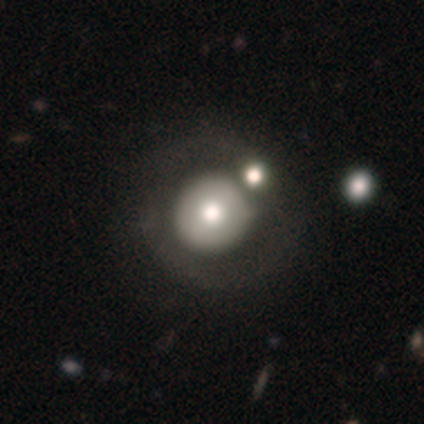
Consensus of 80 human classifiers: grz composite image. It shows a smooth galaxy with no disk features (59%) that is round (98%). Merging: none (32%).